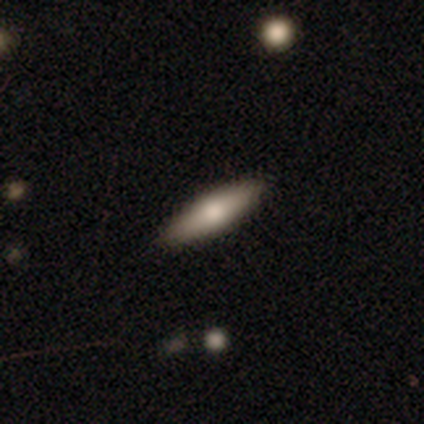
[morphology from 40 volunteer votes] A smooth galaxy with no disk features (60%) that is cigar-shaped (88%). Merging: none (92%).